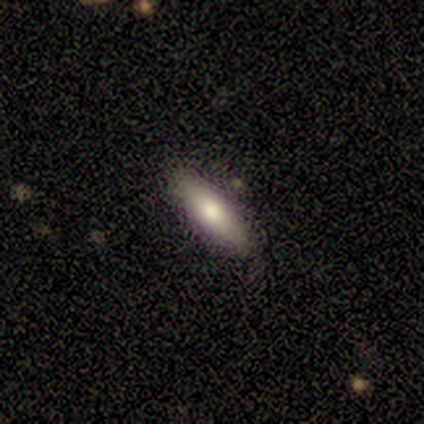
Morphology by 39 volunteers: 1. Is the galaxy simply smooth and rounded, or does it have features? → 54% smooth, 38% featured or disk, 8% star or artifact.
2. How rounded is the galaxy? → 52% in between, 48% cigar-shaped, 0% round.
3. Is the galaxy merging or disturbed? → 89% none, 8% minor disturbance, 3% major disturbance, 0% merger.